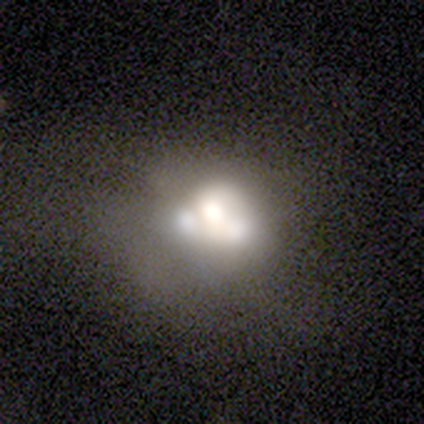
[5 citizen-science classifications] Morphology: type=featured or disk (60%); edge-on=no (100%); bar=no (100%); spiral arms=no (100%); bulge=large (67%); merging=merger (60%).